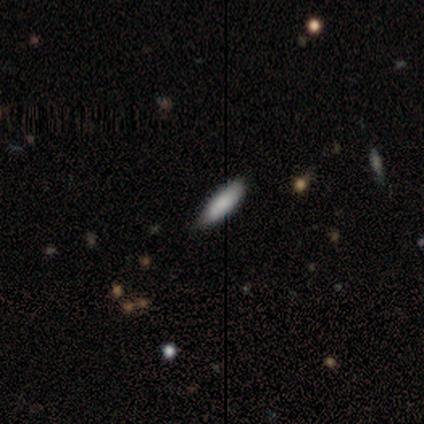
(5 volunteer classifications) A smooth galaxy with no disk features (100%) that is in between round and cigar-shaped (80%).

Vote fractions:
- Smooth or featured? smooth: 100% / featured or disk: 0% / star or artifact: 0%
- How rounded? in between: 80% / cigar-shaped: 20% / round: 0%
- Merging? minor disturbance: 60% / none: 40% / major disturbance: 0% / merger: 0%